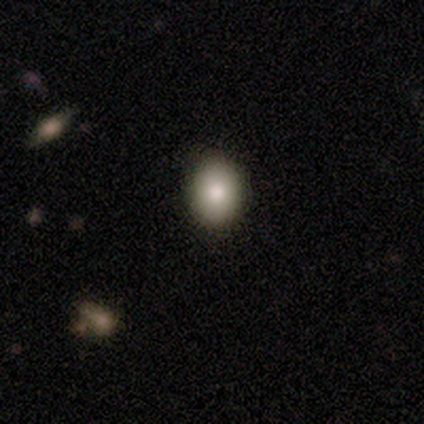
A smooth galaxy with no disk features (80%) that is in between round and cigar-shaped (75%).

Vote fractions:
- Smooth or featured? smooth: 80% / star or artifact: 20% / featured or disk: 0%
- How rounded? in between: 75% / round: 25% / cigar-shaped: 0%
- Merging? none: 100% / minor disturbance: 0% / major disturbance: 0% / merger: 0%